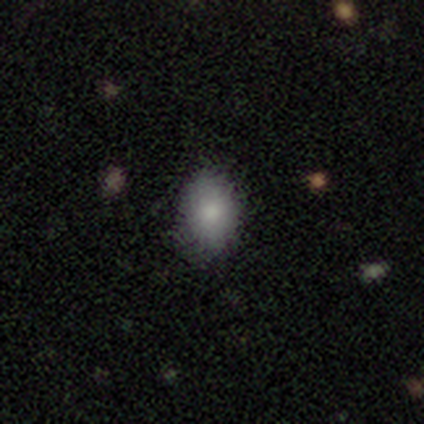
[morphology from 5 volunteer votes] Overall: smooth (100%). How rounded: in between (80%). Merging: none (60%; minor disturbance 20%).